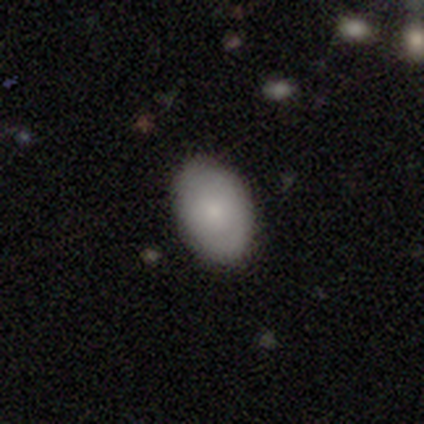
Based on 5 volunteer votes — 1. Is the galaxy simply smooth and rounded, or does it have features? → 60% smooth, 40% featured or disk, 0% star or artifact.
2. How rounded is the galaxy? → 100% in between, 0% round, 0% cigar-shaped.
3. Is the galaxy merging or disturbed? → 100% none, 0% minor disturbance, 0% major disturbance, 0% merger.